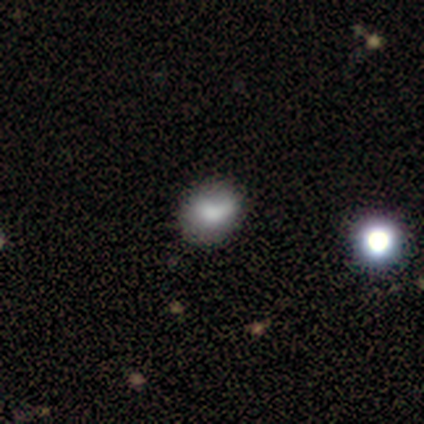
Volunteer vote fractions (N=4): Smooth or featured? 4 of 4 (100%) said smooth. How rounded? 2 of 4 (50%, tied with in between) said round. Merging? 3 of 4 (75%) said none.